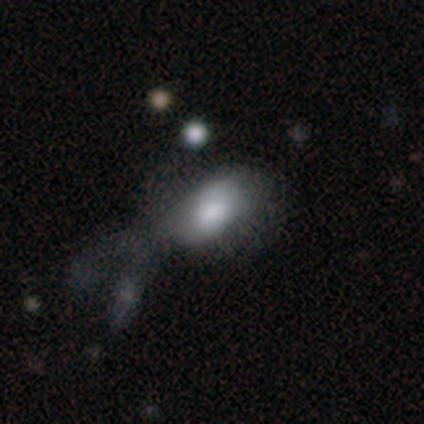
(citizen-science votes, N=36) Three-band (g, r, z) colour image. It shows a smooth galaxy with no disk features (78%) that is in between round and cigar-shaped (89%). Merging: minor disturbance (33%, tied with major disturbance).